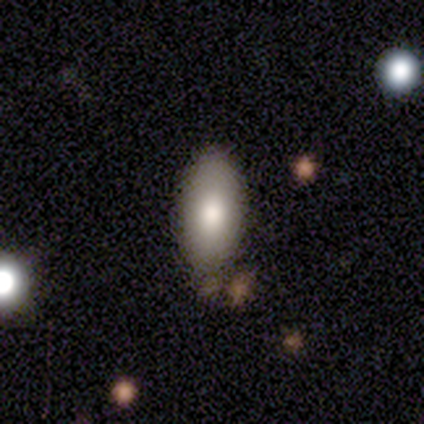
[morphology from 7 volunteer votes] type=smooth (71%); roundness=in between (100%); merging=none (83%).